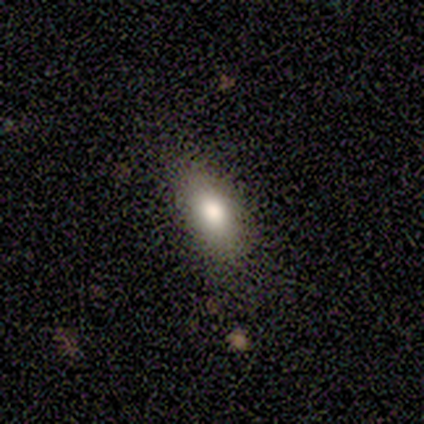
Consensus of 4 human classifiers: smooth 75%, featured or disk 25%, star or artifact 0%. Down the decision tree: how rounded — in between (100%); merging — none (100%).